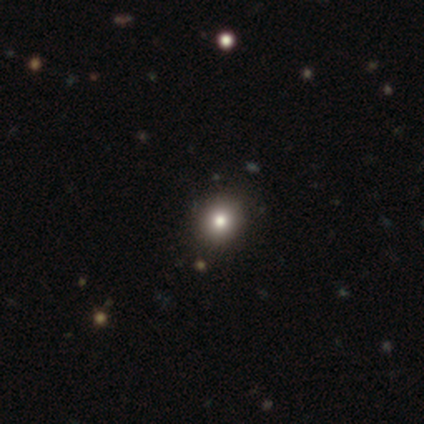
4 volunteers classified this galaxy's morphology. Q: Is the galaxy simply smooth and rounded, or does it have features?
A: smooth — 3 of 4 (75%).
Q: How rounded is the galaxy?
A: round — 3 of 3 (100%).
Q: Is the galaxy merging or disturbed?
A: none — 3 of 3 (100%).